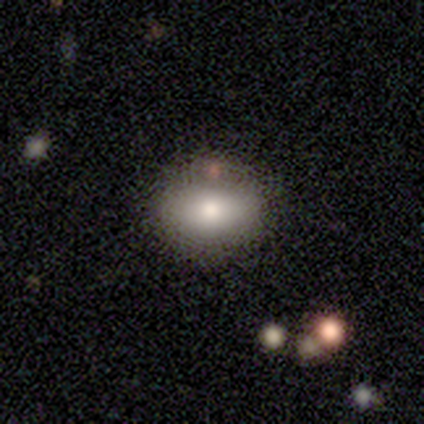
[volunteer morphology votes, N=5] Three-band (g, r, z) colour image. It shows a smooth galaxy with no disk features (80%) that is in between round and cigar-shaped (100%). Merging: none (60%).